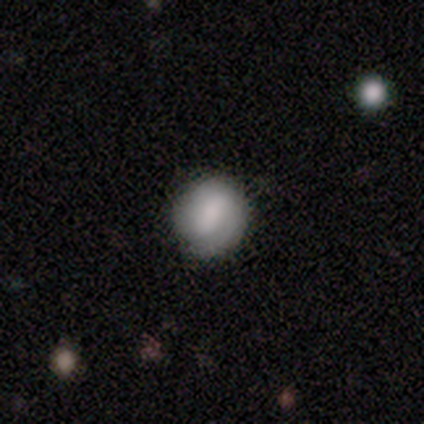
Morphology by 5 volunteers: Smooth or featured?
  - smooth: 80% *
  - featured or disk: 20%
  - star or artifact: 0%
How rounded?
  - round: 75% *
  - in between: 25%
  - cigar-shaped: 0%
Merging?
  - none: 60% *
  - minor disturbance: 20%
  - major disturbance: 20%
  - merger: 0%